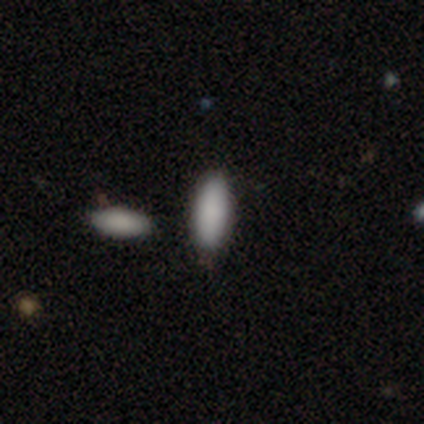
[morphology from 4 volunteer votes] smooth_or_featured: smooth (p=1.00)
how_rounded: in between (p=0.75) [alt: cigar-shaped p=0.25]
merging: none (p=1.00)